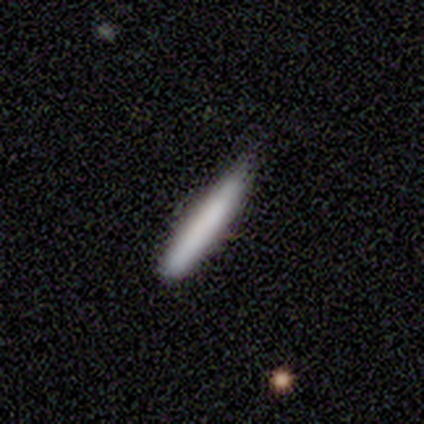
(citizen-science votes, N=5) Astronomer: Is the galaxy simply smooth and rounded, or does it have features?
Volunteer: smooth — 80%.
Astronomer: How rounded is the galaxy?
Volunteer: cigar-shaped — 100%.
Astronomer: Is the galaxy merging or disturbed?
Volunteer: none — 60% (runner-up: minor disturbance, 40%).